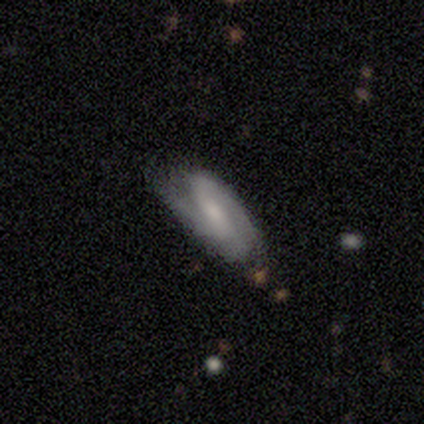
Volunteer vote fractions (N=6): Overall: smooth (67%; featured or disk 33%). How rounded: in between (100%). Merging: none (50%, tied with minor disturbance).